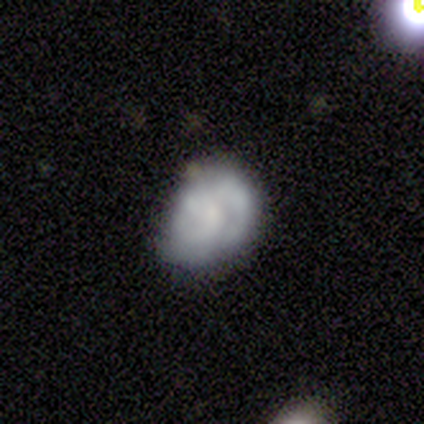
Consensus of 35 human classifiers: Overall: featured or disk (46%; smooth 40%). Edge-on disk: no (100%). Bar: no (81%). Spiral arms: yes (62%; no 38%). Spiral arm count: 2 (50%; 3 20%). Spiral winding: tight (80%). Bulge size: small (50%; none 31%). Merging: none (60%; minor disturbance 27%).